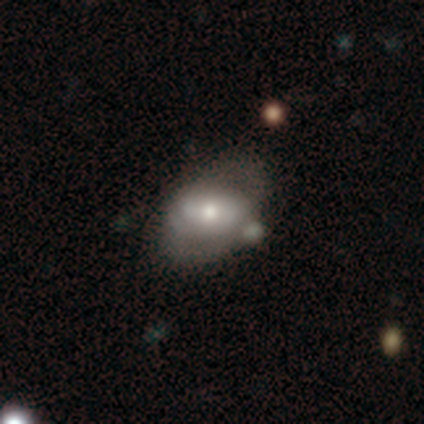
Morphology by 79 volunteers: Overall: featured or disk (54%; smooth 42%). Edge-on disk: no (93%). Bar: no (50%; weak 28%). Spiral arms: yes (50%, tied with no). Spiral arm count: 2 (65%). Spiral winding: tight (50%; medium 35%). Bulge size: moderate (65%). Merging: none (29%; merger 26%).